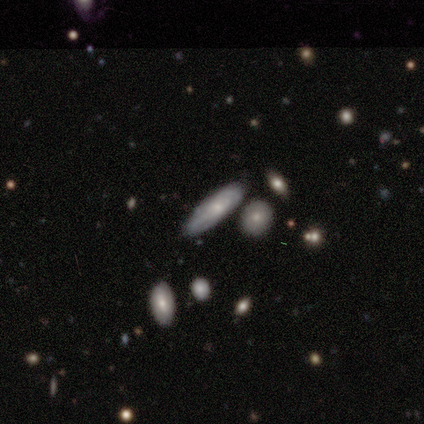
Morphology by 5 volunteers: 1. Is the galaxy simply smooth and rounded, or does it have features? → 60% featured or disk, 40% smooth, 0% star or artifact.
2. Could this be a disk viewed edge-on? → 100% no, 0% yes.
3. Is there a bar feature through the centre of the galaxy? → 100% no, 0% strong, 0% weak.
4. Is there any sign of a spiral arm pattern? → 100% yes, 0% no.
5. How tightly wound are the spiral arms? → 33% tight (tied), 33% medium (tied), 33% loose (tied).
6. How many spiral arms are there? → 67% can't tell, 33% 2, 0% 1, 0% 3, 0% 4, 0% more than 4.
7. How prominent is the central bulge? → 100% moderate, 0% dominant, 0% large, 0% small, 0% none.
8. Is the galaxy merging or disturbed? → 80% none, 20% merger, 0% minor disturbance, 0% major disturbance.